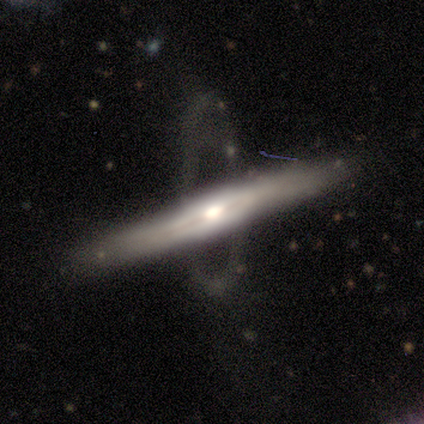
Smooth or featured? 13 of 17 (76%) said featured or disk. Edge-on disk? 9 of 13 (69%) said yes. Edge-on bulge? 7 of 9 (78%) said rounded. Merging? 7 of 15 (47%) said none.